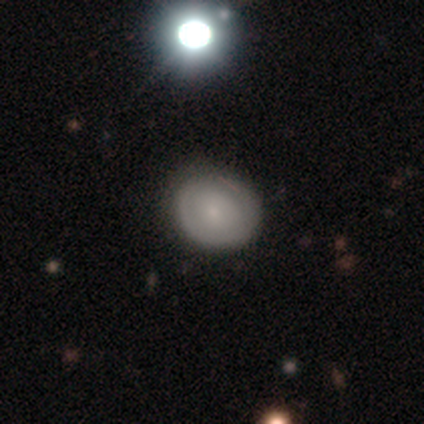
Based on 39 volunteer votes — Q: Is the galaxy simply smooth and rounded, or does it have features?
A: smooth — 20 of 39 (51%).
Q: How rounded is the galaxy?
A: round — 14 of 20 (70%).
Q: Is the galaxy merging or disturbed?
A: none — 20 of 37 (54%).